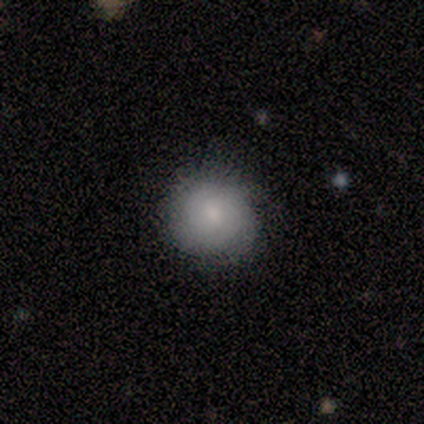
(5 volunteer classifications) Smooth or featured? 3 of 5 (60%) said featured or disk. Edge-on disk? 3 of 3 (100%) said no. Bar? 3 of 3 (100%) said no. Spiral arms? 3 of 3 (100%) said yes. Spiral winding? 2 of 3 (67%) said medium. Spiral arm count? 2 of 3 (67%) said can't tell. Bulge size? 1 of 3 (33%, tied with large and moderate) said dominant. Merging? 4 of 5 (80%) said none.